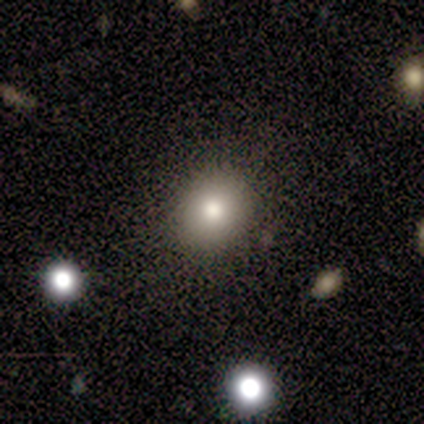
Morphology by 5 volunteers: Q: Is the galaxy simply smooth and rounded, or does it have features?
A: smooth — 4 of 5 (80%).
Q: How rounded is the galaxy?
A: round — 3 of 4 (75%).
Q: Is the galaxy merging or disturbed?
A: none — 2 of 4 (50%, tied with minor disturbance).